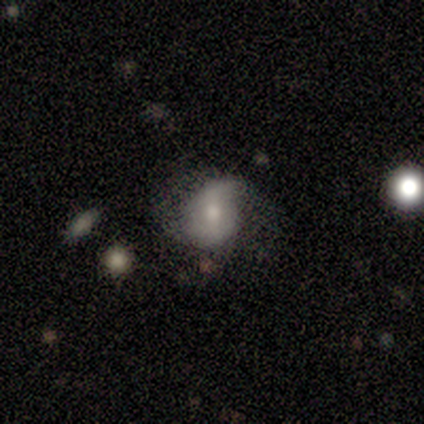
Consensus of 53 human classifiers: A featured or disk galaxy (58%) with a weak bar (55%), 2 (77%) tight (35%, tied with medium) spiral arms (84%) and a moderate central bulge (45%). Merging: none (41%).